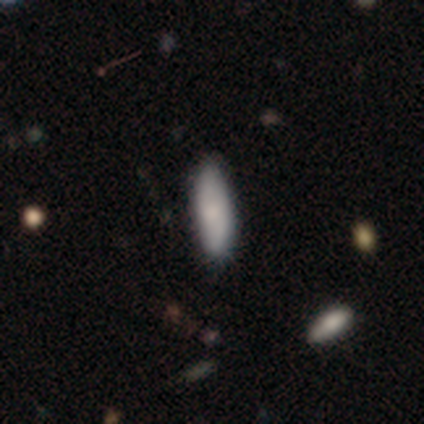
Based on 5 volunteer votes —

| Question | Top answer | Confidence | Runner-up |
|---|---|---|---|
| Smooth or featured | smooth | 80% | featured or disk (20%) |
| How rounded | in between | 75% | cigar-shaped (25%) |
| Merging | none | 60% | minor disturbance (20%) |